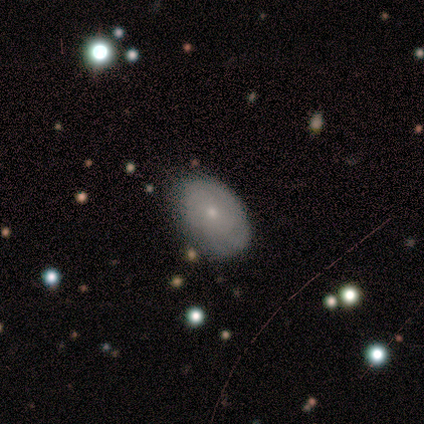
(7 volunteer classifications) Smooth or featured?
  - smooth: 71% *
  - featured or disk: 29%
  - star or artifact: 0%
How rounded?
  - in between: 100% *
  - round: 0%
  - cigar-shaped: 0%
Merging?
  - none: 100% *
  - minor disturbance: 0%
  - major disturbance: 0%
  - merger: 0%